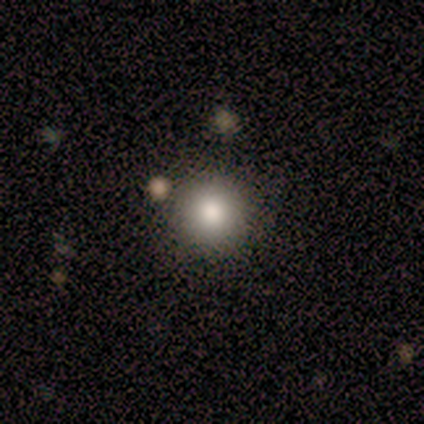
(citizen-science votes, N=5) This is likely a smooth galaxy (60%). How rounded: clearly round (100%). Merging: clearly none (100%).